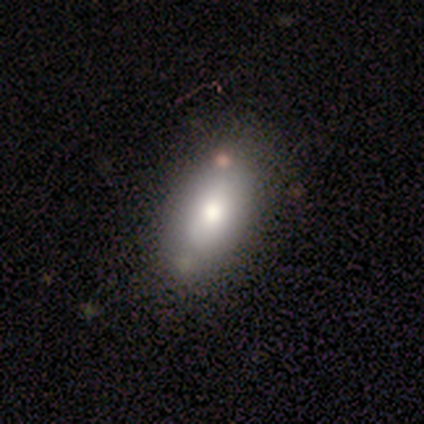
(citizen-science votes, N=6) This is clearly a smooth galaxy (83%). How rounded: clearly in between (100%). Merging: likely none (67%).